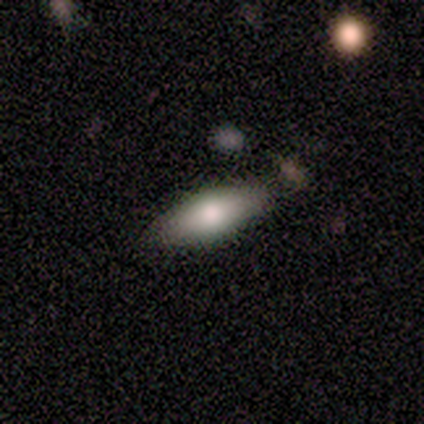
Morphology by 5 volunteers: smooth_or_featured: smooth (p=0.60) [alt: featured or disk p=0.40]
how_rounded: cigar-shaped (p=0.67) [alt: round p=0.33]
merging: none (p=0.80) [alt: minor disturbance p=0.20]